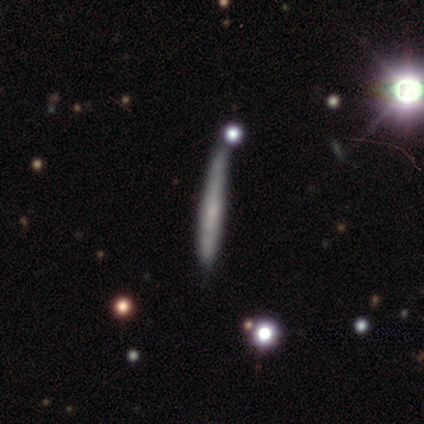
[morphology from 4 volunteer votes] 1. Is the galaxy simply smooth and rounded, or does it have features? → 75% smooth, 25% star or artifact, 0% featured or disk.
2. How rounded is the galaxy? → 100% cigar-shaped, 0% round, 0% in between.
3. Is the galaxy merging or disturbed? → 67% minor disturbance, 33% merger, 0% none, 0% major disturbance.